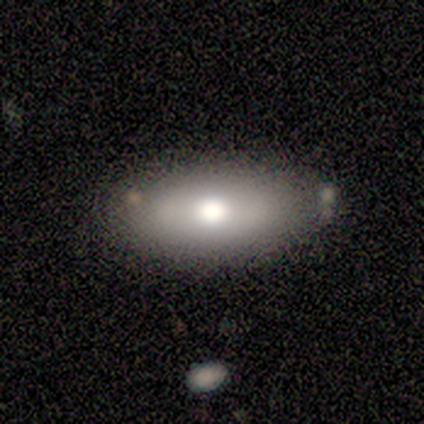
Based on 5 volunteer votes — Overall: featured or disk (60%; smooth 40%). Edge-on disk: no (100%). Bar: strong (33%, tied with weak and no). Spiral arms: no (67%; yes 33%). Bulge size: moderate (67%; dominant 33%). Merging: none (100%).